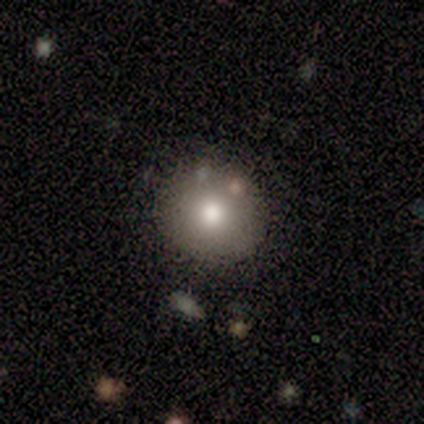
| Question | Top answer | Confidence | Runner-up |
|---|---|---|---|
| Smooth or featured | smooth | 91% | featured or disk (9%) |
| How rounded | round | 70% | in between (30%) |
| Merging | none | 91% | minor disturbance (9%) |